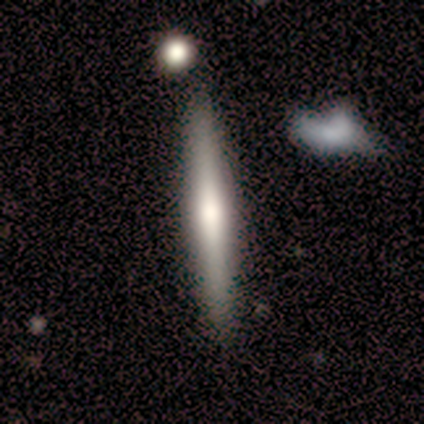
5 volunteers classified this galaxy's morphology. Q: Smooth or featured?
A: smooth (60%); runner-up: featured or disk (40%)
Q: How rounded?
A: cigar-shaped (100%)
Q: Merging?
A: none (100%)